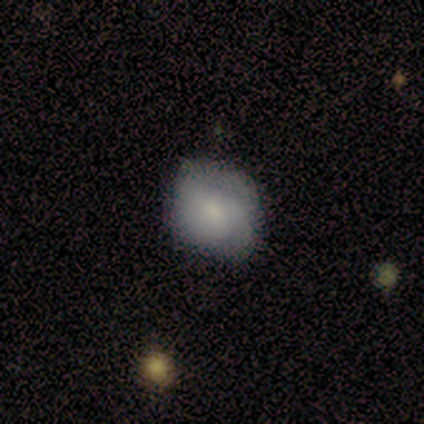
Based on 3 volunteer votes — Smooth or featured? 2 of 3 (67%) said smooth. How rounded? 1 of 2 (50%, tied with in between) said round. Merging? 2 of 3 (67%) said minor disturbance.